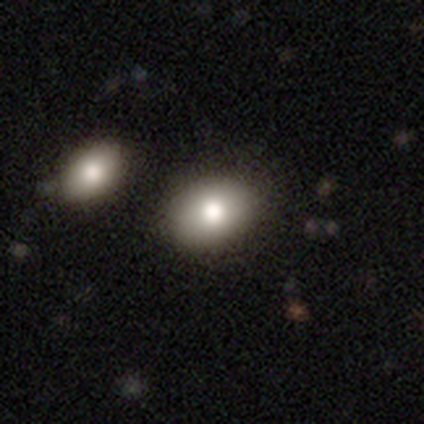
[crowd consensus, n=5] Smooth or featured? 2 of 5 (40%, tied with featured or disk) said smooth. How rounded? 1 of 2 (50%, tied with in between) said round. Merging? 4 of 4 (100%) said none.